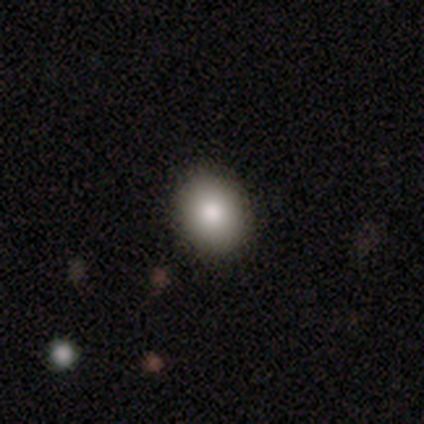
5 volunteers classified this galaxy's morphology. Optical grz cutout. It shows a smooth galaxy with no disk features (100%) that is in between round and cigar-shaped (60%). Merging: none (100%).